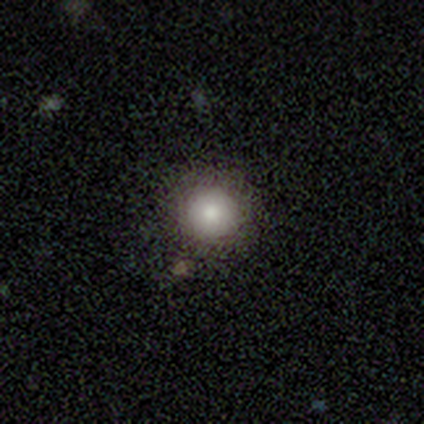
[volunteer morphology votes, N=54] Volunteers were most divided on "merging": none: 83%, minor disturbance: 13%, major disturbance: 4%, merger: 0%. More confident: how rounded — round (94%); smooth or featured — smooth (89%).